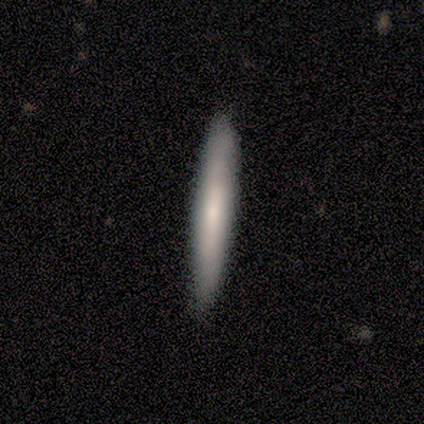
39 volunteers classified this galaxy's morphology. Overall: smooth (59%; featured or disk 41%). How rounded: cigar-shaped (100%). Merging: none (56%).